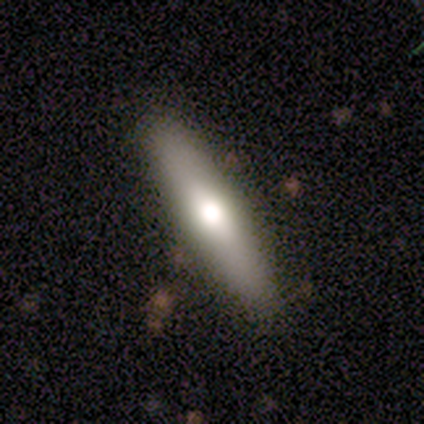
smooth 60%, featured or disk 40%, star or artifact 0%. Down the decision tree: how rounded — cigar-shaped (100%); merging — none (80%).